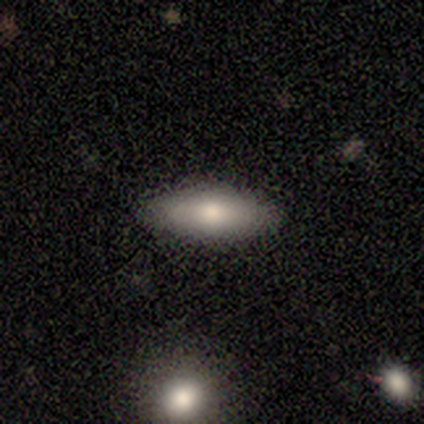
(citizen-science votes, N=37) Q: Smooth or featured?
A: smooth (84%); runner-up: featured or disk (11%)
Q: How rounded?
A: in between (52%); runner-up: cigar-shaped (48%)
Q: Merging?
A: none (86%); runner-up: minor disturbance (11%)